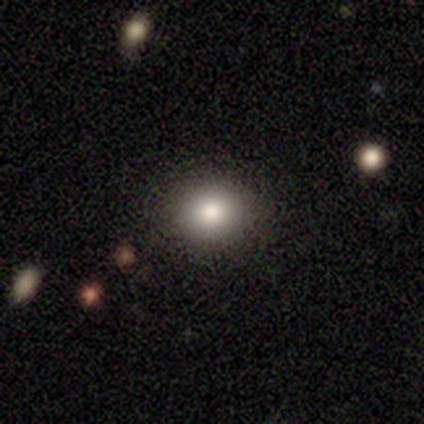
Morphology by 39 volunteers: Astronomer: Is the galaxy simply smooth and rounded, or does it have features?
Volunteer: smooth — 72%.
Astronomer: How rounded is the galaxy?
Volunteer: round — 75%.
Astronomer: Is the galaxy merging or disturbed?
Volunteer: none — 97%.